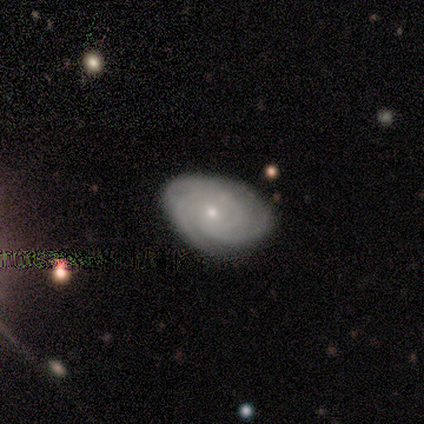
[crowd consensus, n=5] Q: Smooth or featured?
A: featured or disk (80%); runner-up: smooth (20%)
Q: Edge-on disk?
A: no (100%)
Q: Bar?
A: no (100%)
Q: Spiral arms?
A: yes (75%); runner-up: no (25%)
Q: Spiral winding?
A: tight (100%)
Q: Spiral arm count?
A: 3 (67%); runner-up: 2 (33%)
Q: Bulge size?
A: moderate (75%); runner-up: small (25%)
Q: Merging?
A: none (80%); runner-up: minor disturbance (20%)